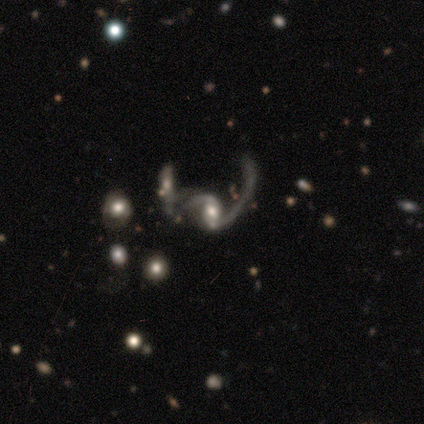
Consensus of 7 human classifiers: Smooth or featured? featured or disk (71%)
Edge-on disk? no (100%)
Bar? weak (100%)
Spiral arms? yes (80%)
Spiral winding? loose (100%)
Spiral arm count? 2 (100%)
Bulge size? moderate (60%)
Merging? none (40%, tied with merger)